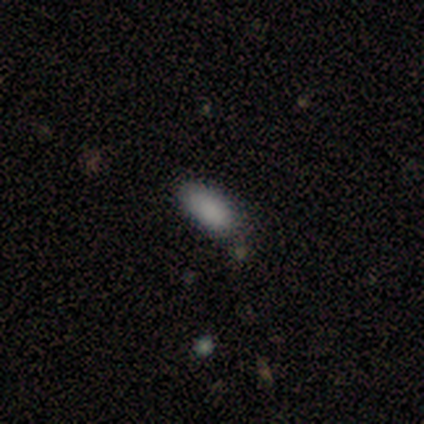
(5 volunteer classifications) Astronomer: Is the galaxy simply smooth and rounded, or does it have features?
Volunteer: smooth — 100%.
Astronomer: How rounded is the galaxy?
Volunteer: in between — 100%.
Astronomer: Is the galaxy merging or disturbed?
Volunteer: none — 60% (runner-up: minor disturbance, 40%).